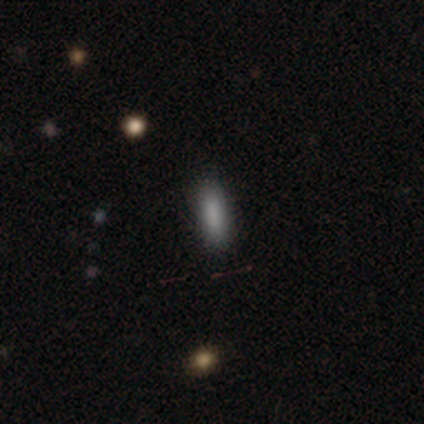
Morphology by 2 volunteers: smooth 100%, featured or disk 0%, star or artifact 0%. Down the decision tree: how rounded — cigar-shaped (100%); merging — none (100%).